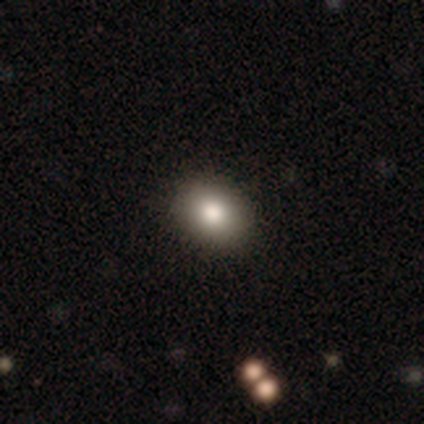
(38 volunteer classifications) This is likely a smooth galaxy (74%). How rounded: possibly in between (57%). Merging: clearly none (82%).